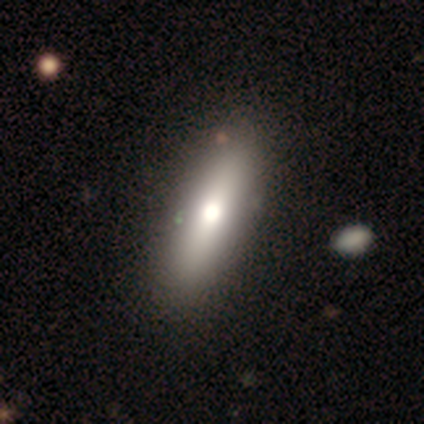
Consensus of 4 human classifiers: Morphology: type=smooth (75%); roundness=cigar-shaped (67%); merging=none (75%).